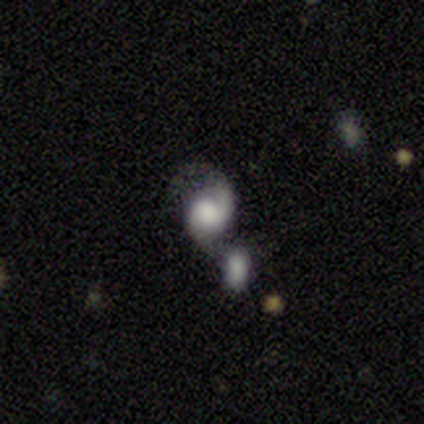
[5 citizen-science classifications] Volunteers were most divided on "smooth or featured" (2-way tie): featured or disk: 40%, star or artifact: 40%, smooth: 20%; "spiral winding" (2-way tie): medium: 50%, loose: 50%, tight: 0%; "spiral arm count" (2-way tie): 1: 50%, can't tell: 50%, 2: 0%, 3: 0%, 4: 0%, more than 4: 0%. More confident: edge-on disk — no (100%); bar — no (100%); spiral arms — yes (100%); bulge size — none (100%); merging — merger (100%).